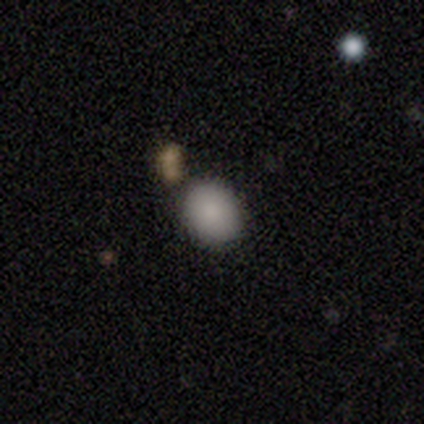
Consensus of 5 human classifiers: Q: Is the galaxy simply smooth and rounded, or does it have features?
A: smooth — 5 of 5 (100%).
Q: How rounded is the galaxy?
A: round — 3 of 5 (60%).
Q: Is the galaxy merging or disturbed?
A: none — 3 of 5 (60%).